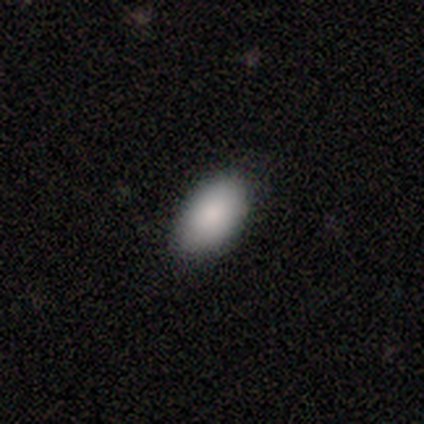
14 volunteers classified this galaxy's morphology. smooth-or-featured: smooth: 79% | star or artifact: 14% | featured or disk: 7%
  how-rounded: in between: 91% | round: 9% | cigar-shaped: 0%
  merging: none: 75% | minor disturbance: 25% | major disturbance: 0% | merger: 0%